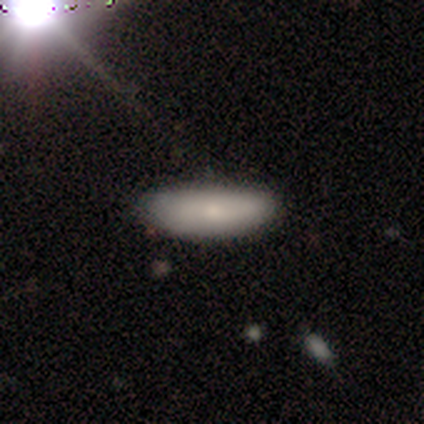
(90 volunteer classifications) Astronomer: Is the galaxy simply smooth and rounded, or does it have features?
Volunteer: smooth — 79%.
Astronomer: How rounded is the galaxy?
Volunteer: in between — 59% (runner-up: cigar-shaped, 39%).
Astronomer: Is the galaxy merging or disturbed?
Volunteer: none — 74%.